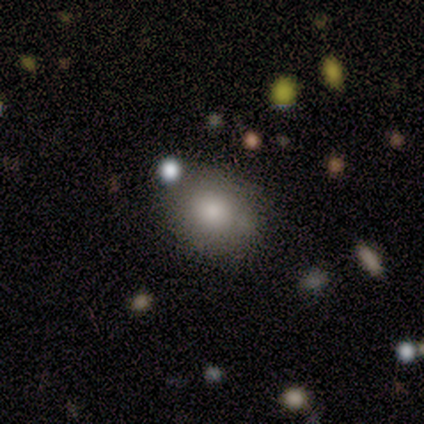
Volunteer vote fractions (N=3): Smooth or featured?
  - smooth: 67% *
  - featured or disk: 33%
  - star or artifact: 0%
How rounded?
  - round: 50% * (tied)
  - in between: 50% * (tied)
  - cigar-shaped: 0%
Merging?
  - none: 100% *
  - minor disturbance: 0%
  - major disturbance: 0%
  - merger: 0%